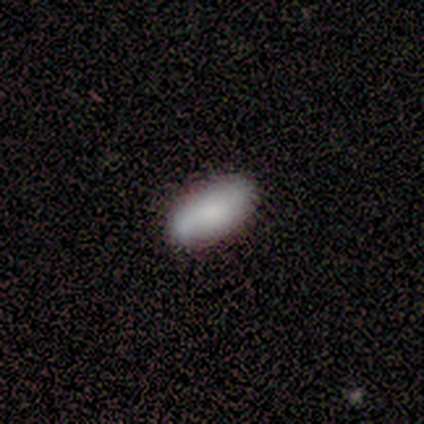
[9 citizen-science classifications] A smooth galaxy with no disk features (78%) that is in between round and cigar-shaped (100%).

Vote fractions:
- Smooth or featured? smooth: 78% / featured or disk: 22% / star or artifact: 0%
- How rounded? in between: 100% / round: 0% / cigar-shaped: 0%
- Merging? none: 67% / minor disturbance: 33% / major disturbance: 0% / merger: 0%